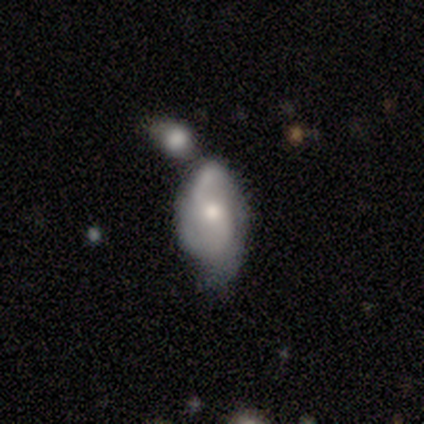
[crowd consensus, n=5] Smooth or featured: featured or disk — 60% (smooth — 40%)
Edge-on disk: no — 100%
Bar: weak — 67% (no — 33%)
Spiral arms: yes — 100%
Spiral winding: medium — 67% (tight — 33%)
Spiral arm count: 2 — 100%
Bulge size: large — 33% (tied with moderate — 33%; small — 33%)
Merging: merger — 40% (none — 20%)